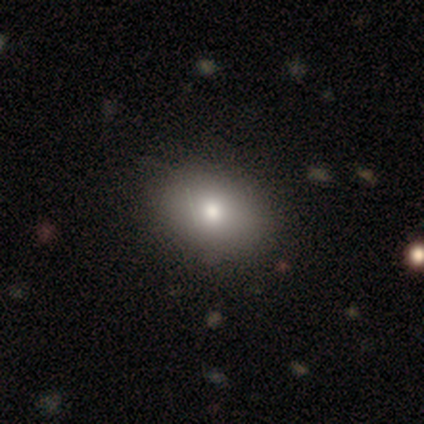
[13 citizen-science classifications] Q: Smooth or featured?
A: smooth (77%); runner-up: featured or disk (15%)
Q: How rounded?
A: in between (80%); runner-up: round (20%)
Q: Merging?
A: none (100%)